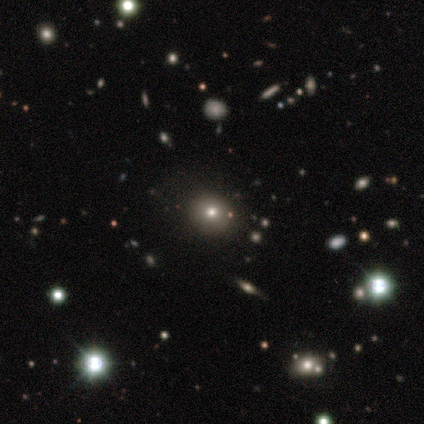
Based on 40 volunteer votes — smooth_or_featured: smooth (p=0.60) [alt: star or artifact p=0.25]
how_rounded: round (p=0.92) [alt: in between p=0.08]
merging: none (p=0.93) [alt: minor disturbance p=0.07]